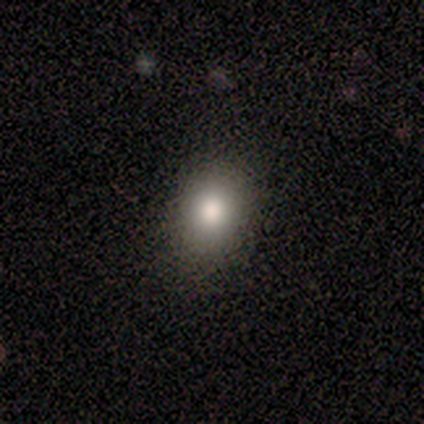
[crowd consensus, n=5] Smooth or featured? 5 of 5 (100%) said smooth. How rounded? 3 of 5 (60%) said round. Merging? 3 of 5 (60%) said none.